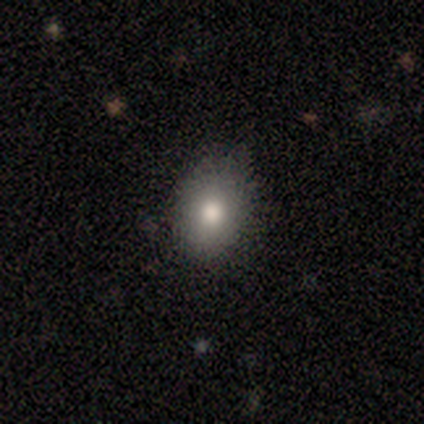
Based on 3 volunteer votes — Overall: smooth (100%). How rounded: in between (67%; round 33%). Merging: none (67%; minor disturbance 33%).